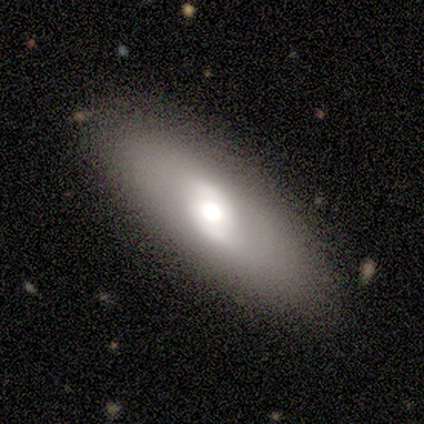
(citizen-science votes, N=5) Smooth or featured?
  - smooth: 60% *
  - featured or disk: 20%
  - star or artifact: 20%
How rounded?
  - round: 33% * (tied)
  - in between: 33% * (tied)
  - cigar-shaped: 33% * (tied)
Merging?
  - none: 100% *
  - minor disturbance: 0%
  - major disturbance: 0%
  - merger: 0%